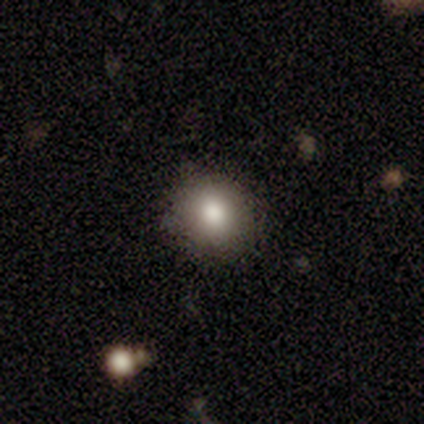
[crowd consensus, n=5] smooth 80%, featured or disk 20%, star or artifact 0%. Down the decision tree: how rounded — round (100%); merging — none (80%).